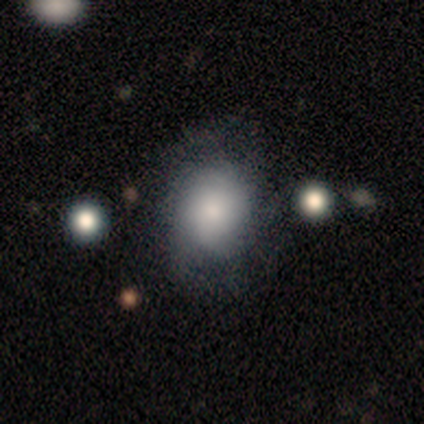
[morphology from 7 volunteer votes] Overall: smooth (86%). How rounded: round (83%). Merging: none (71%).